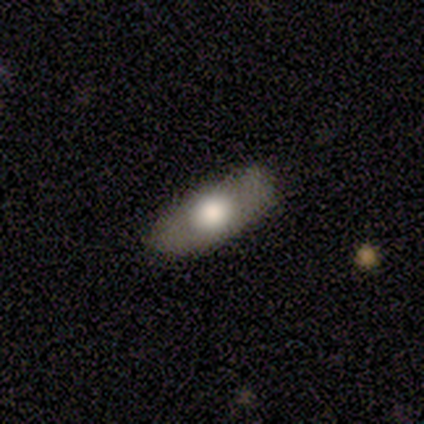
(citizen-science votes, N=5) Smooth or featured?
  - star or artifact: 60% *
  - smooth: 40%
  - featured or disk: 0%